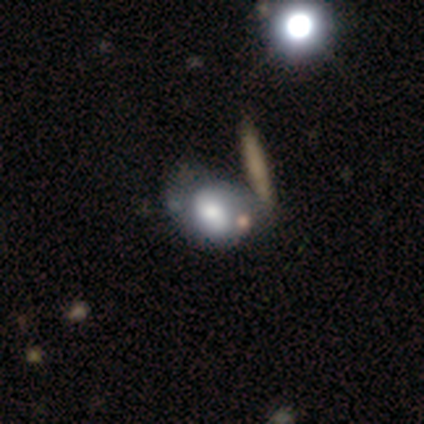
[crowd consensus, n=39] Morphology: type=featured or disk (49%); edge-on=no (89%); bar=no (71%); spiral arms=no (53%); bulge=moderate (47%); merging=none (31%, tied with minor disturbance).